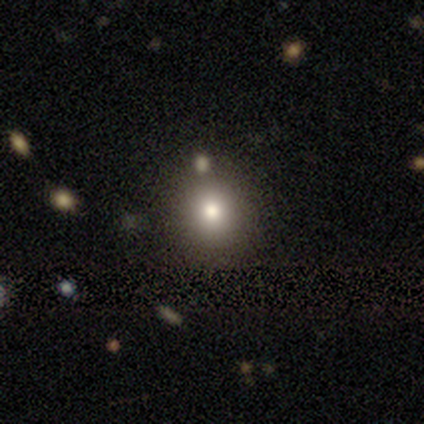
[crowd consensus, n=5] Consensus on every question: smooth or featured — smooth (100%); how rounded — round (100%); merging — none (100%).